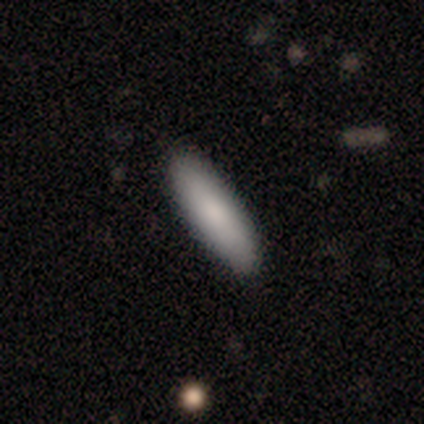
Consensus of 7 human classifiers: Overall: smooth (86%). How rounded: cigar-shaped (100%). Merging: none (86%).